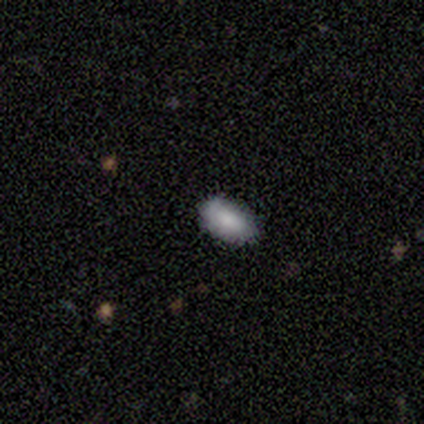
Smooth or featured: smooth — 80% (star or artifact — 20%)
How rounded: in between — 100%
Merging: none — 75% (minor disturbance — 25%)